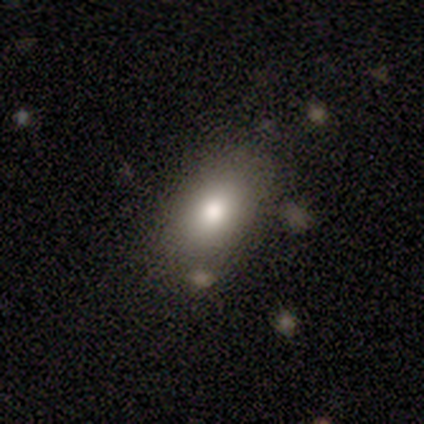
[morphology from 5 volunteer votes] type=smooth (100%); roundness=in between (100%); merging=none (80%).